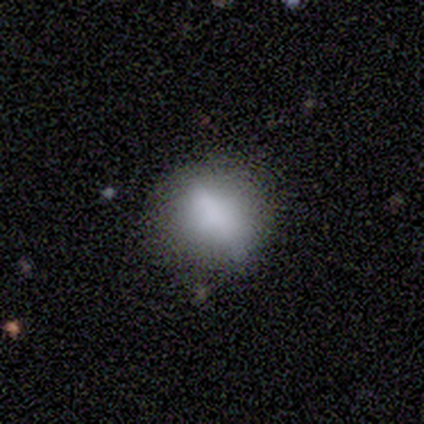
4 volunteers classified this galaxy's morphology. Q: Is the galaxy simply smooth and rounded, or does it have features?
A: smooth — 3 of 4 (75%).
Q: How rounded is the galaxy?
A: round — 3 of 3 (100%).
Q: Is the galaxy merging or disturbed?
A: none — 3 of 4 (75%).